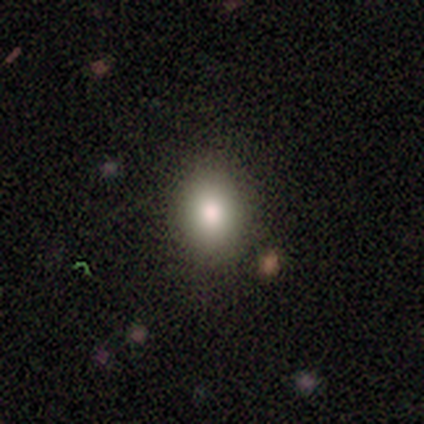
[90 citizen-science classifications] A smooth galaxy with no disk features (83%) that is in between round and cigar-shaped (53%).

Vote fractions:
- Smooth or featured? smooth: 83% / star or artifact: 11% / featured or disk: 6%
- How rounded? in between: 53% / round: 44% / cigar-shaped: 3%
- Merging? none: 82% / minor disturbance: 18% / major disturbance: 0% / merger: 0%